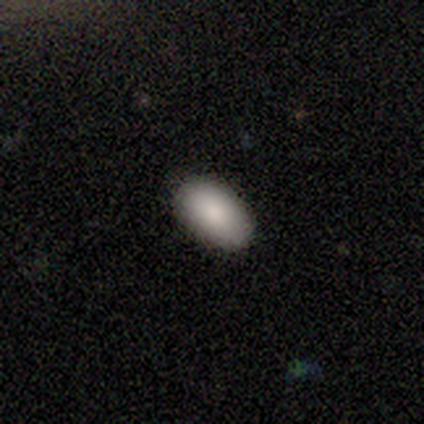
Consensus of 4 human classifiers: Smooth or featured? smooth (100%)
How rounded? in between (100%)
Merging? none (100%)